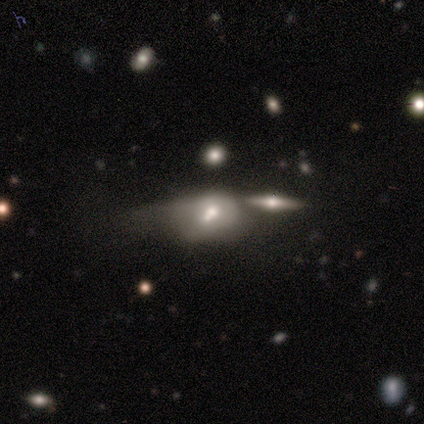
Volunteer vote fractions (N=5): smooth-or-featured: smooth: 60% | featured or disk: 20% | star or artifact: 20%
  how-rounded: in between: 67% | cigar-shaped: 33% | round: 0%
  merging: none: 50% (tied) | major disturbance: 50% (tied) | minor disturbance: 0% | merger: 0%